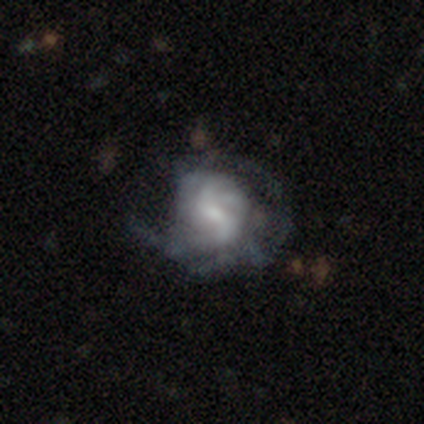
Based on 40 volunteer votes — A featured or disk galaxy (85%) with a weak bar (58%), tight (43%) spiral arms (85%) and a small central bulge (45%). Merging: none (30%).